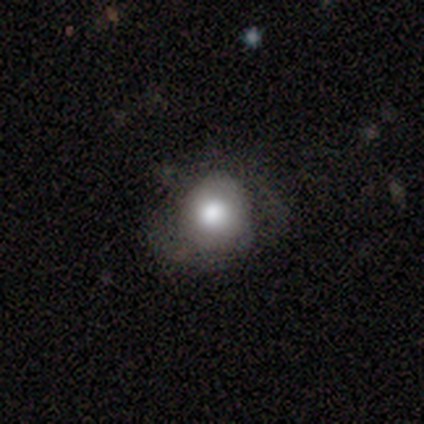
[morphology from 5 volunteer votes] Overall: smooth (60%; star or artifact 40%). How rounded: round (100%). Merging: none (67%; major disturbance 33%).